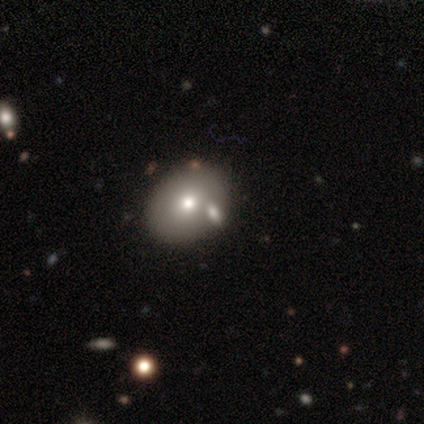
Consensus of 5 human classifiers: smooth-or-featured: star or artifact: 60% | smooth: 20% | featured or disk: 20%